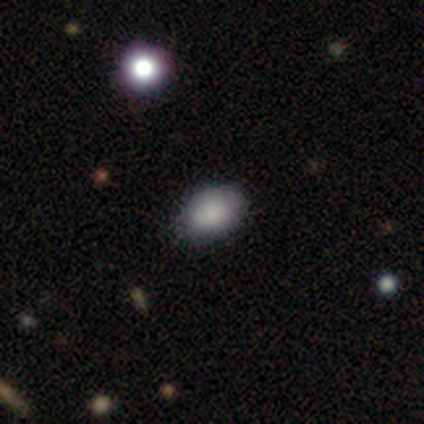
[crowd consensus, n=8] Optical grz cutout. It shows a smooth galaxy with no disk features (100%) that is in between round and cigar-shaped (88%). Merging: none (88%).